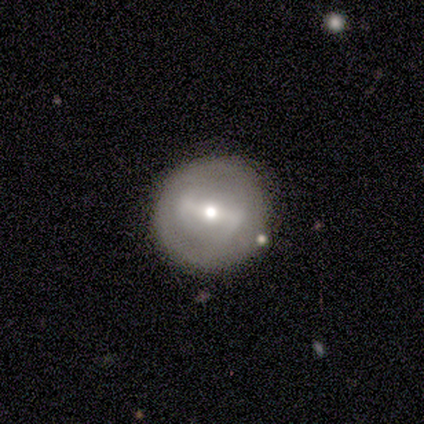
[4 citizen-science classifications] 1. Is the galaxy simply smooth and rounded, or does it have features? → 75% featured or disk, 25% smooth, 0% star or artifact.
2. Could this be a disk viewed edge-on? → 100% no, 0% yes.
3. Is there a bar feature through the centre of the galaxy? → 67% weak, 33% strong, 0% no.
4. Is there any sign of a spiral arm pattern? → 67% yes, 33% no.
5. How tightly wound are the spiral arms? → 50% medium (tied), 50% loose (tied), 0% tight.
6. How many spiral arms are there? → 100% 2, 0% 1, 0% 3, 0% 4, 0% more than 4, 0% can't tell.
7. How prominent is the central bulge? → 67% moderate, 33% small, 0% dominant, 0% large, 0% none.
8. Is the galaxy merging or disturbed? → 100% none, 0% minor disturbance, 0% major disturbance, 0% merger.